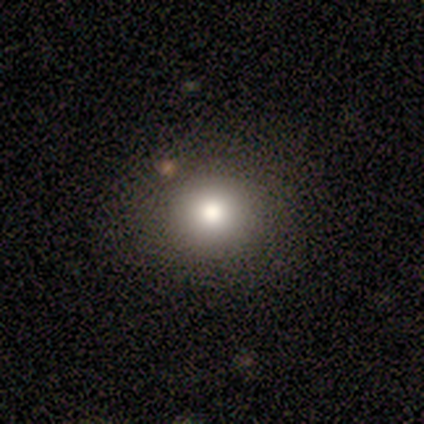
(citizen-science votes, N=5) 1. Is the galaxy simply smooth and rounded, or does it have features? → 60% smooth, 20% featured or disk, 20% star or artifact.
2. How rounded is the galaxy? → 67% round, 33% in between, 0% cigar-shaped.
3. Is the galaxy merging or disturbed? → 100% none, 0% minor disturbance, 0% major disturbance, 0% merger.